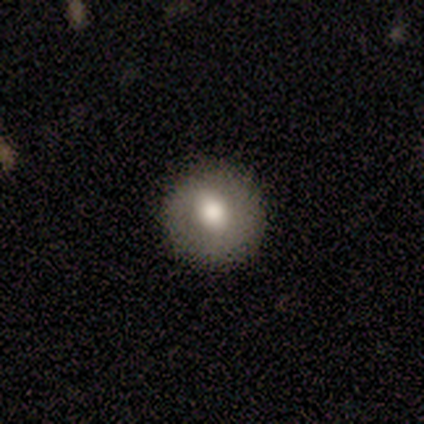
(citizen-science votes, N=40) This appears to be a smooth galaxy with no disk features (68%) that is round (89%). Merging: none (95%).